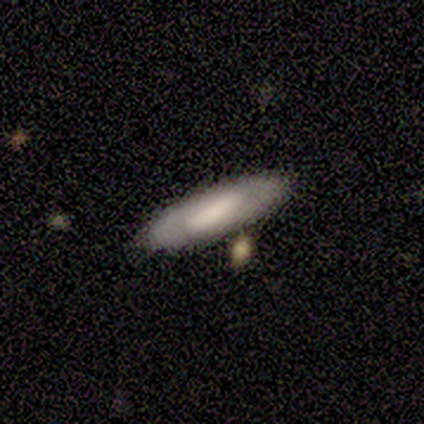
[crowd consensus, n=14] smooth_or_featured: smooth (p=0.50) [tied with: featured or disk p=0.50]
how_rounded: in between (p=0.57) [alt: cigar-shaped p=0.43]
merging: none (p=0.86) [alt: minor disturbance p=0.07]